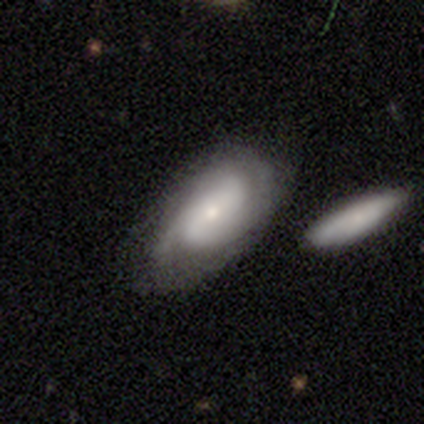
Smooth or featured?
  - featured or disk: 60% *
  - smooth: 40%
  - star or artifact: 0%
Edge-on disk?
  - no: 100% *
  - yes: 0%
Bar?
  - no: 67% *
  - weak: 33%
  - strong: 0%
Spiral arms?
  - yes: 100% *
  - no: 0%
Spiral winding?
  - medium: 67% *
  - tight: 33%
  - loose: 0%
Spiral arm count?
  - 2: 67% *
  - can't tell: 33%
  - 1: 0%
  - 3: 0%
  - 4: 0%
  - more than 4: 0%
Bulge size?
  - small: 100% *
  - dominant: 0%
  - large: 0%
  - moderate: 0%
  - none: 0%
Merging?
  - none: 60% *
  - minor disturbance: 40%
  - major disturbance: 0%
  - merger: 0%